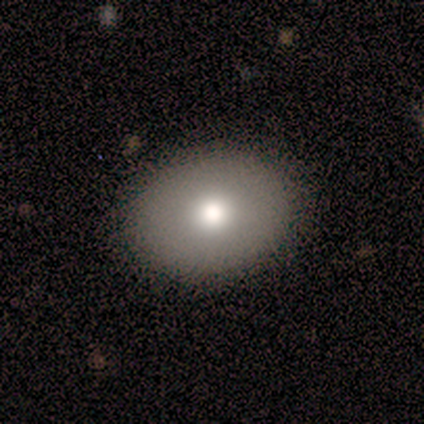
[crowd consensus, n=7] Smooth or featured? 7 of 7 (100%) said smooth. How rounded? 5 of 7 (71%) said in between. Merging? 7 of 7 (100%) said none.